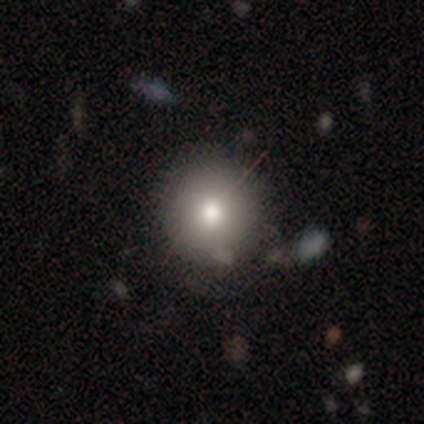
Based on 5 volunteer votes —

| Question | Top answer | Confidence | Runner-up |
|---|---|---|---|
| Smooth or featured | smooth | 80% | star or artifact (20%) |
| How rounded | round | 100% | — |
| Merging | none | 75% | major disturbance (25%) |